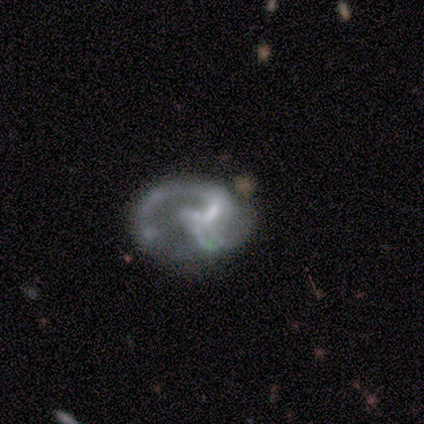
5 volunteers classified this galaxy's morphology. Smooth or featured: featured or disk — 100%
Edge-on disk: no — 100%
Bar: strong — 40% (tied with no — 40%)
Spiral arms: yes — 100%
Spiral winding: medium — 80% (loose — 20%)
Spiral arm count: 1 — 100%
Bulge size: none — 60% (small — 40%)
Merging: none — 40% (tied with minor disturbance — 40%)